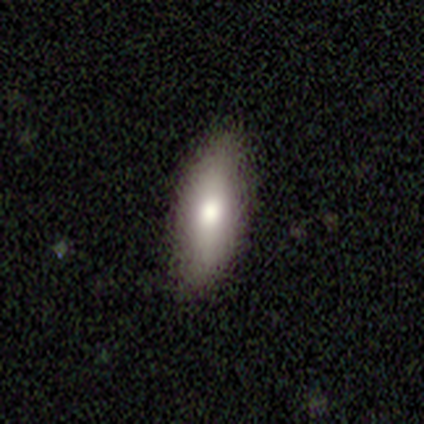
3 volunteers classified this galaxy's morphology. Smooth or featured: smooth — 100%
How rounded: in between — 67% (cigar-shaped — 33%)
Merging: minor disturbance — 67% (none — 33%)